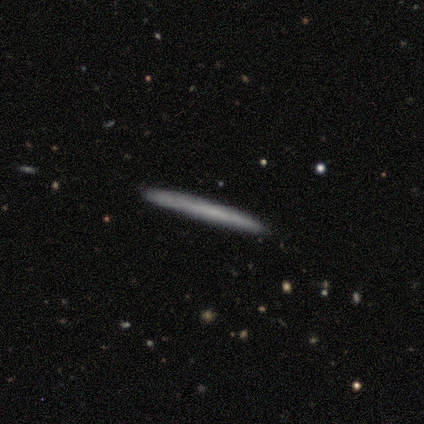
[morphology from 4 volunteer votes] smooth 50% (tied), featured or disk 50% (tied), star or artifact 0%. Down the decision tree: how rounded — cigar-shaped (100%); merging — none (100%).